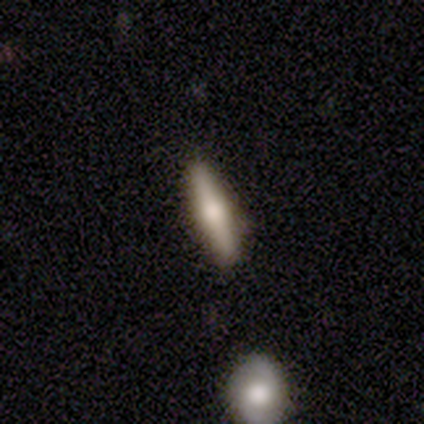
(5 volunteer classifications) This is likely a smooth galaxy (60%). How rounded: clearly cigar-shaped (100%). Merging: clearly none (80%).